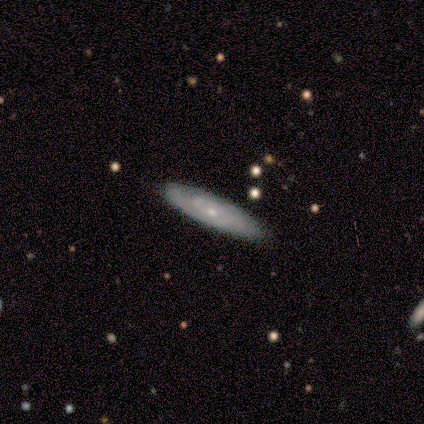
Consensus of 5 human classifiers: smooth_or_featured: featured or disk (p=1.00)
disk_edge_on: no (p=1.00)
bar: no (p=0.60) [alt: weak p=0.40]
has_spiral_arms: yes (p=1.00)
spiral_winding: tight (p=0.40) [tied with: medium p=0.40]
spiral_arm_count: 2 (p=0.40) [tied with: can't tell p=0.40]
bulge_size: small (p=1.00)
merging: none (p=1.00)